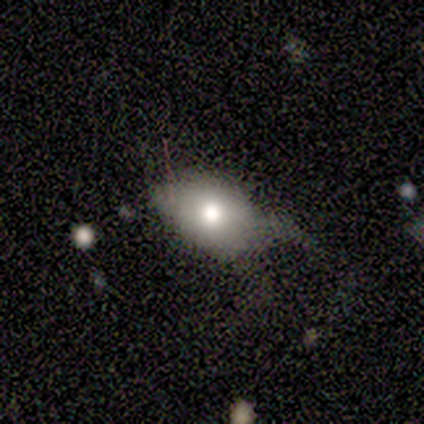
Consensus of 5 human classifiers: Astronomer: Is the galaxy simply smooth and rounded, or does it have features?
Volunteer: smooth — 80%.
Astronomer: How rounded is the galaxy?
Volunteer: in between — 50%.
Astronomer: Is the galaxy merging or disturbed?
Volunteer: minor disturbance — 50%.